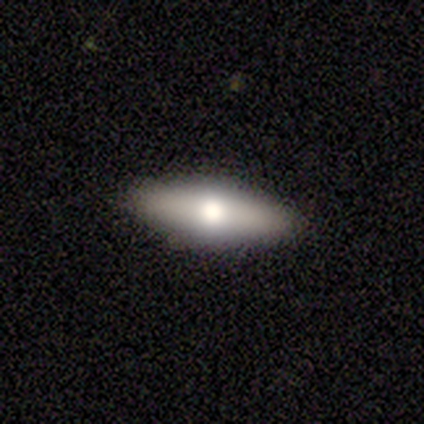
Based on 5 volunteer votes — A smooth galaxy with no disk features (40%, tied with featured or disk) that is in between round and cigar-shaped (50%, tied with cigar-shaped).

Vote fractions:
- Smooth or featured? smooth: 40% (tied) / featured or disk: 40% (tied) / star or artifact: 20%
- How rounded? in between: 50% (tied) / cigar-shaped: 50% (tied) / round: 0%
- Merging? none: 75% / minor disturbance: 25% / major disturbance: 0% / merger: 0%